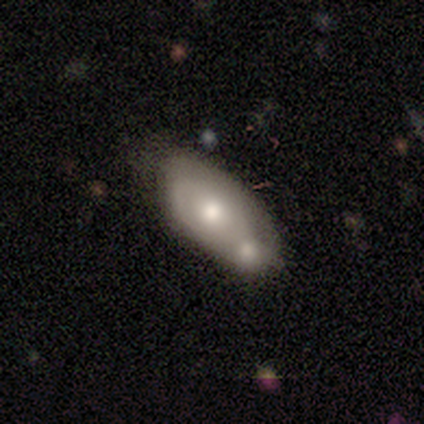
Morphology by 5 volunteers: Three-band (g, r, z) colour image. It shows a featured or disk galaxy (60%) with no bar (100%), no spiral arms (67%) and a moderate central bulge (67%). Merging: merger (60%).